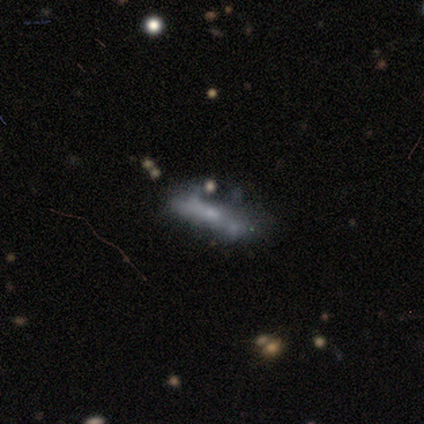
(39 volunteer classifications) Volunteers were most divided on "merging": major disturbance: 30%, none: 27%, minor disturbance: 27%, merger: 15%. Remaining: bar — no (92%); spiral arms — no (85%); edge-on disk — no (72%); bulge size — none (62%); smooth or featured — featured or disk (46%).